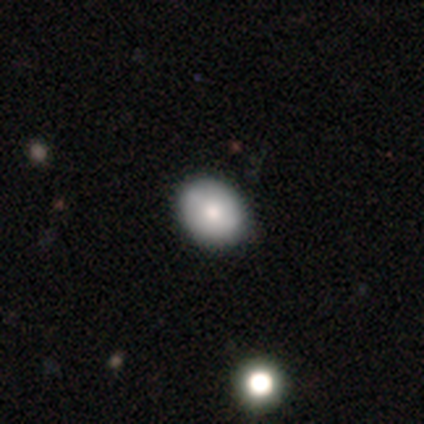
Smooth or featured?
  - smooth: 65% *
  - featured or disk: 28%
  - star or artifact: 8%
How rounded?
  - in between: 54% *
  - round: 46%
  - cigar-shaped: 0%
Merging?
  - none: 59% *
  - merger: 8%
  - minor disturbance: 5%
  - major disturbance: 3%